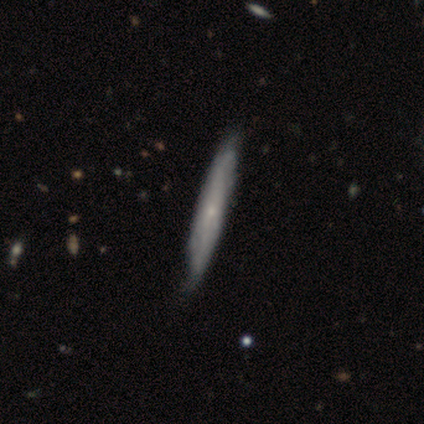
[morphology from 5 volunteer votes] Q: Smooth or featured?
A: smooth (60%); runner-up: featured or disk (40%)
Q: How rounded?
A: cigar-shaped (100%)
Q: Merging?
A: none (60%); runner-up: minor disturbance (40%)